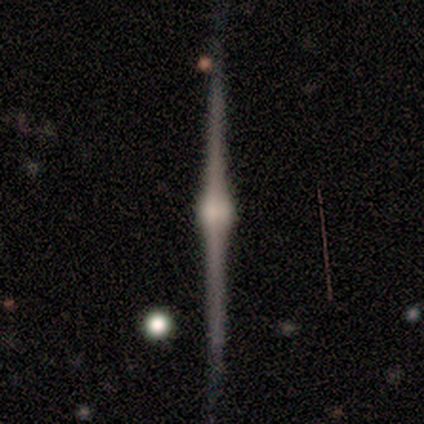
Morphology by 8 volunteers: This is clearly a featured or disk galaxy (88%). It is clearly viewed edge-on (86%). Edge-on bulge: clearly rounded (100%). Merging: clearly none (100%).